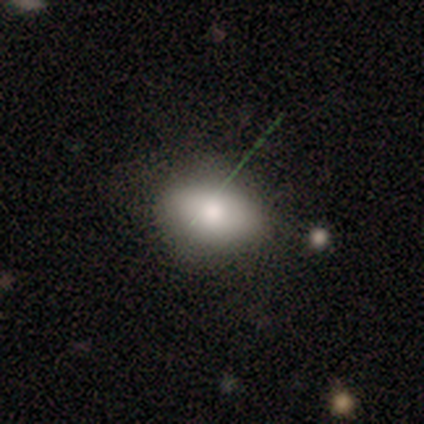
Morphology: type=smooth (100%); roundness=in between (100%); merging=none (80%).